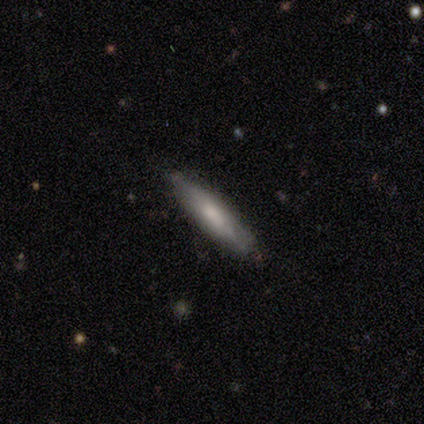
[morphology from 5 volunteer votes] smooth 80%, featured or disk 20%, star or artifact 0%. Down the decision tree: how rounded — cigar-shaped (100%); merging — none (100%).